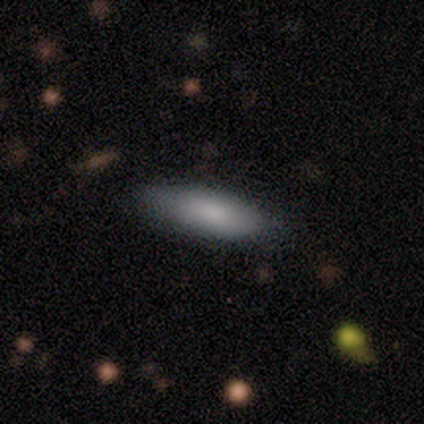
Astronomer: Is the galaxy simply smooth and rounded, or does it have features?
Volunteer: smooth — 83%.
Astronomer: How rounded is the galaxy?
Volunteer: in between — 80%.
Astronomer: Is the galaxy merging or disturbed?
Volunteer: none — 82%.